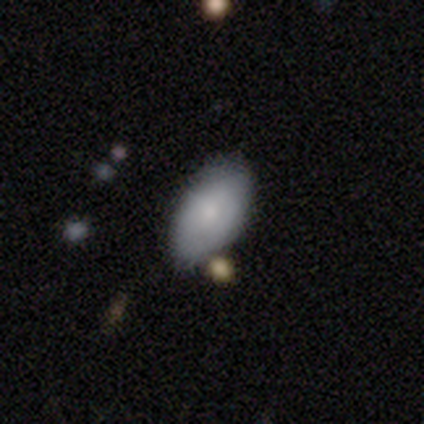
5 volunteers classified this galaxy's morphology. A smooth galaxy with no disk features (100%) that is in between round and cigar-shaped (100%). Merging: none (100%).